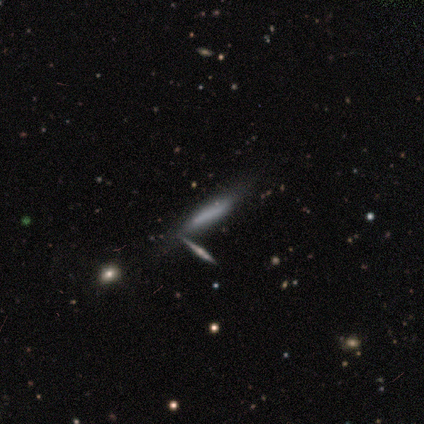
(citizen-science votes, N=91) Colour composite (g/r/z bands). It shows a smooth galaxy with no disk features (54%) that is cigar-shaped (86%). Merging: none (60%).